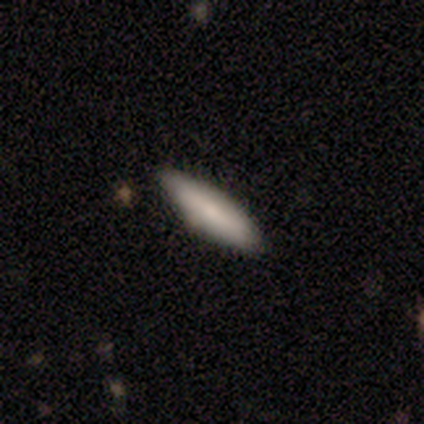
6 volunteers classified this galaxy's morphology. A smooth galaxy with no disk features (83%) that is cigar-shaped (80%).

Vote fractions:
- Smooth or featured? smooth: 83% / featured or disk: 17% / star or artifact: 0%
- How rounded? cigar-shaped: 80% / in between: 20% / round: 0%
- Merging? none: 67% / minor disturbance: 33% / major disturbance: 0% / merger: 0%